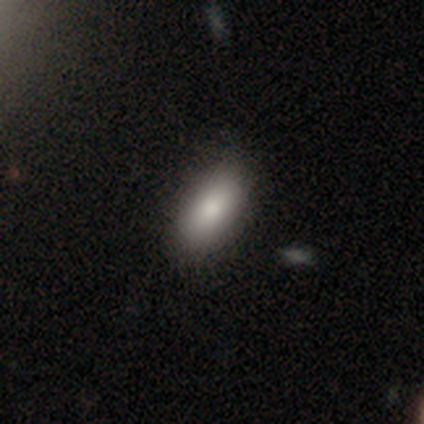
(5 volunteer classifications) Smooth or featured? 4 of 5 (80%) said smooth. How rounded? 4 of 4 (100%) said in between. Merging? 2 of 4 (50%, tied with minor disturbance) said none.